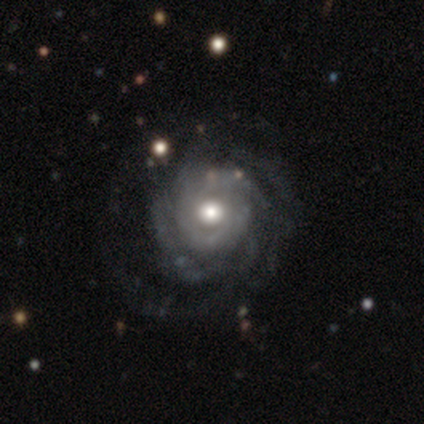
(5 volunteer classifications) Q: Smooth or featured?
A: featured or disk (100%)
Q: Edge-on disk?
A: no (100%)
Q: Bar?
A: no (80%); runner-up: weak (20%)
Q: Spiral arms?
A: yes (100%)
Q: Spiral winding?
A: tight (100%)
Q: Spiral arm count?
A: can't tell (80%); runner-up: 2 (20%)
Q: Bulge size?
A: moderate (60%); runner-up: large (40%)
Q: Merging?
A: none (60%); runner-up: minor disturbance (40%)